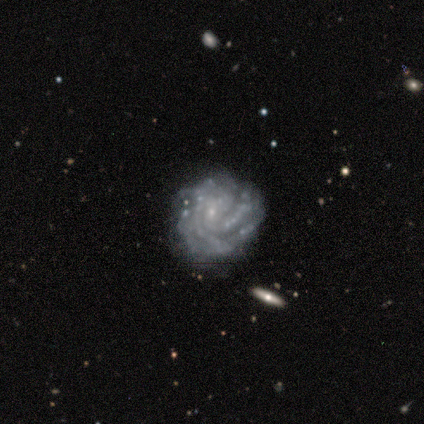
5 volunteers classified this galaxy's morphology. Q: Smooth or featured?
A: featured or disk (100%)
Q: Edge-on disk?
A: no (100%)
Q: Bar?
A: no (80%); runner-up: weak (20%)
Q: Spiral arms?
A: yes (100%)
Q: Spiral winding?
A: tight (80%); runner-up: medium (20%)
Q: Spiral arm count?
A: more than 4 (60%); runner-up: 3 (20%)
Q: Bulge size?
A: small (100%)
Q: Merging?
A: none (100%)